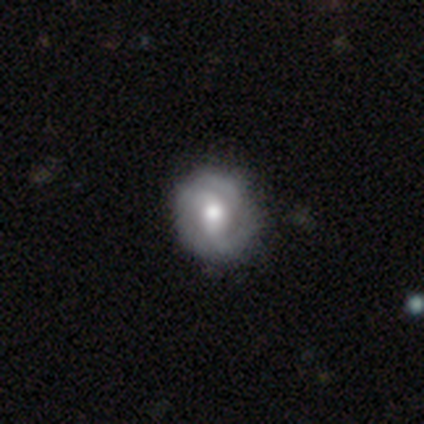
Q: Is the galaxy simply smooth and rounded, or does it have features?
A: featured or disk — 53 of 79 (67%).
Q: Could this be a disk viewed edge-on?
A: no — 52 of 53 (98%).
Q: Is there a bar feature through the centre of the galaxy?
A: no — 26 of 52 (50%).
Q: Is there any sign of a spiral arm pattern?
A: yes — 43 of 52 (83%).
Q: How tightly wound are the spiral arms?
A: tight — 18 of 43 (42%).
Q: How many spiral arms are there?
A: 2 — 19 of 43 (44%).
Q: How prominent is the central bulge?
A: moderate — 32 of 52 (62%).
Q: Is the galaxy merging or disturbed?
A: none — 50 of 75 (67%).